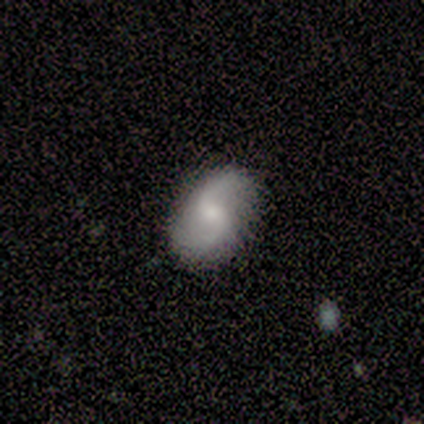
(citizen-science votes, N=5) Smooth or featured? 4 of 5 (80%) said featured or disk. Edge-on disk? 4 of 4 (100%) said no. Bar? 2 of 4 (50%, tied with no) said weak. Spiral arms? 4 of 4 (100%) said yes. Spiral winding? 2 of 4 (50%, tied with loose) said medium. Spiral arm count? 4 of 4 (100%) said 2. Bulge size? 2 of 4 (50%, tied with small) said moderate. Merging? 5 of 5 (100%) said none.